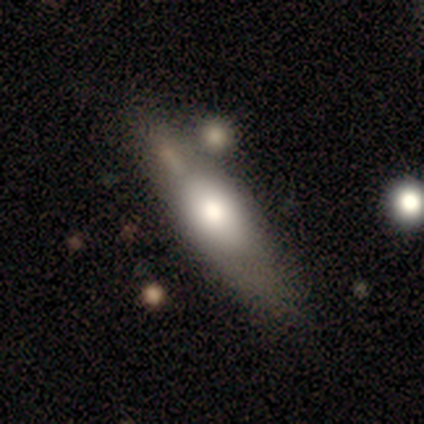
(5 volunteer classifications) Overall: featured or disk (60%; smooth 40%). Edge-on disk: yes (67%; no 33%). Edge-on bulge: rounded (100%). Merging: none (60%; major disturbance 20%).